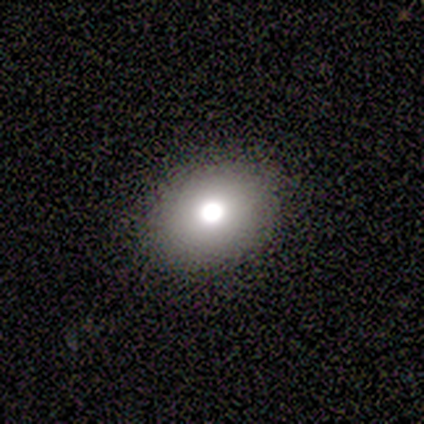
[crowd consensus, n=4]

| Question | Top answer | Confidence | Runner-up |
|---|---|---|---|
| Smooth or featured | smooth | 75% | featured or disk (25%) |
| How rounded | in between | 67% | round (33%) |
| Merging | none | 100% | — |